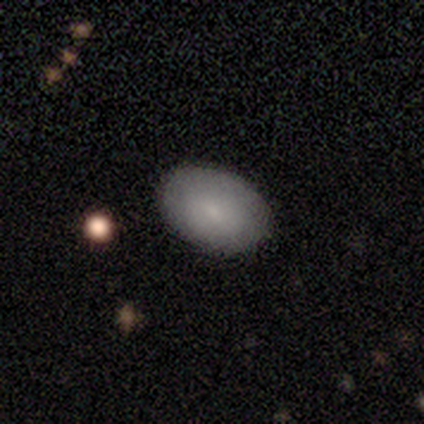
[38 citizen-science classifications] smooth 74%, featured or disk 16%, star or artifact 11%. Down the decision tree: how rounded — in between (89%); merging — none (91%).